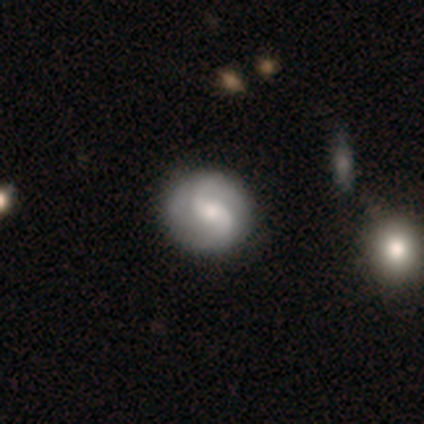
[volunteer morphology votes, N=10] Overall: featured or disk (80%). Edge-on disk: no (100%). Bar: weak (38%, tied with no). Spiral arms: yes (100%). Spiral arm count: 2 (75%). Spiral winding: loose (50%; tight 25%). Bulge size: moderate (88%). Merging: none (89%).